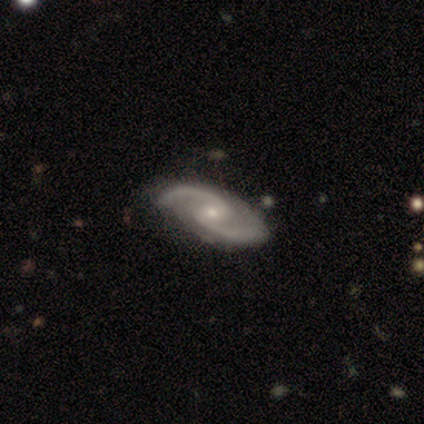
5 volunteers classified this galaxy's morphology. A featured or disk galaxy (100%) with a strong bar (40%, tied with weak), 2 (100%) loose (60%) spiral arms (100%) and a moderate central bulge (60%). Merging: none (60%).